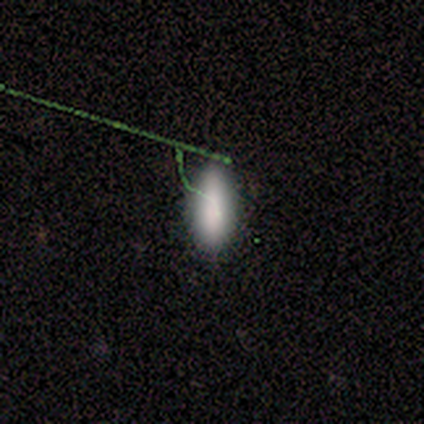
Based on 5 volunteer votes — A smooth galaxy with no disk features (60%) that is cigar-shaped (67%). Merging: major disturbance (67%).